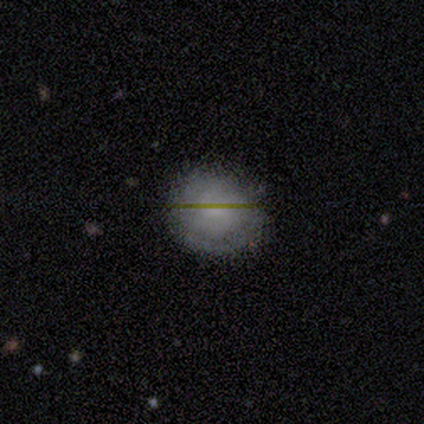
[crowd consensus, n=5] A smooth galaxy with no disk features (60%) that is round (100%).

Vote fractions:
- Smooth or featured? smooth: 60% / featured or disk: 40% / star or artifact: 0%
- How rounded? round: 100% / in between: 0% / cigar-shaped: 0%
- Merging? none: 80% / minor disturbance: 20% / major disturbance: 0% / merger: 0%